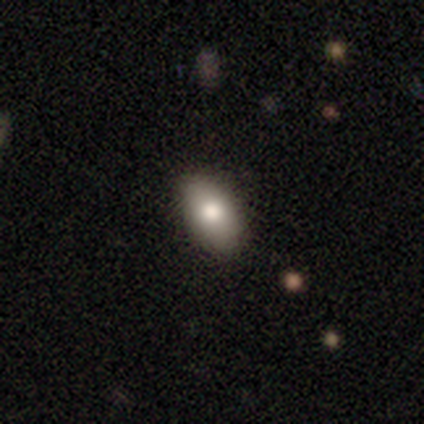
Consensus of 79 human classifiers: A smooth galaxy with no disk features (82%) that is in between round and cigar-shaped (88%). Merging: none (59%).